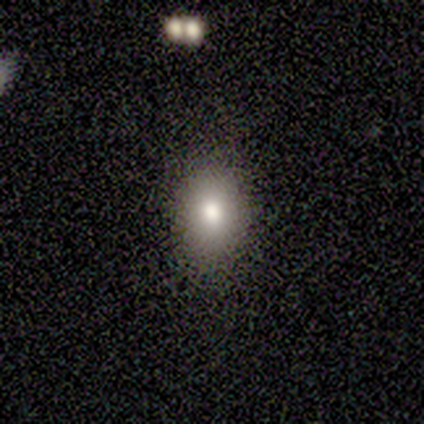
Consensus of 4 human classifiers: smooth-or-featured: smooth: 50% (tied) | featured or disk: 50% (tied) | star or artifact: 0%
  how-rounded: in between: 100% | round: 0% | cigar-shaped: 0%
  merging: none: 100% | minor disturbance: 0% | major disturbance: 0% | merger: 0%